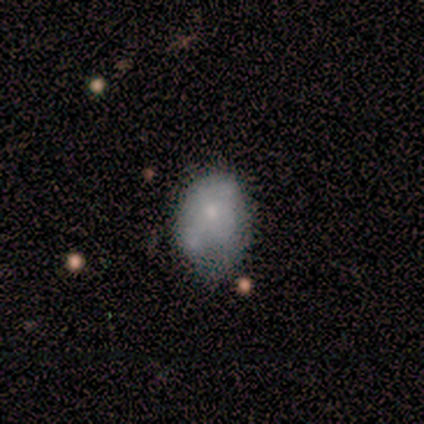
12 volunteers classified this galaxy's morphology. This appears to be a smooth galaxy with no disk features (92%) that is in between round and cigar-shaped (91%). Merging: minor disturbance (58%).